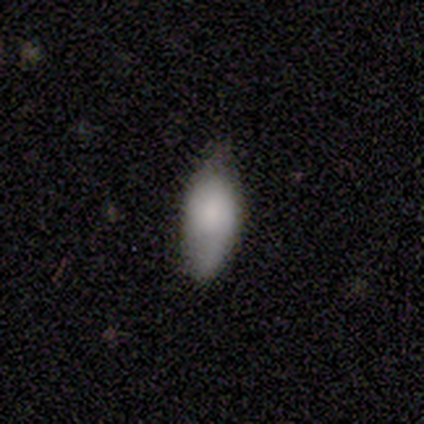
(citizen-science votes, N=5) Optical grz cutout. It shows a smooth galaxy with no disk features (60%) that is in between round and cigar-shaped (100%). Merging: none (80%).